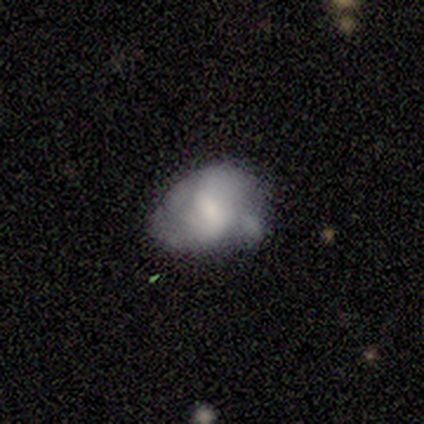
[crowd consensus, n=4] Smooth or featured? 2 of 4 (50%) said featured or disk. Edge-on disk? 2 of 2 (100%) said no. Bar? 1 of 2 (50%, tied with no) said weak. Spiral arms? 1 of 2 (50%, tied with no) said yes. Spiral winding? 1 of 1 (100%) said medium. Spiral arm count? 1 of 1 (100%) said 2. Bulge size? 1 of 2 (50%, tied with none) said small. Merging? 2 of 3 (67%) said none.